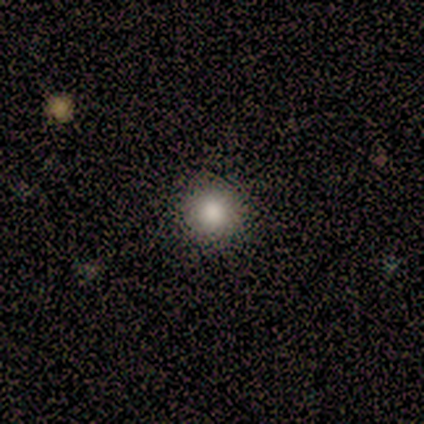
This is clearly a smooth galaxy (100%). How rounded: clearly round (80%). Merging: clearly none (80%).